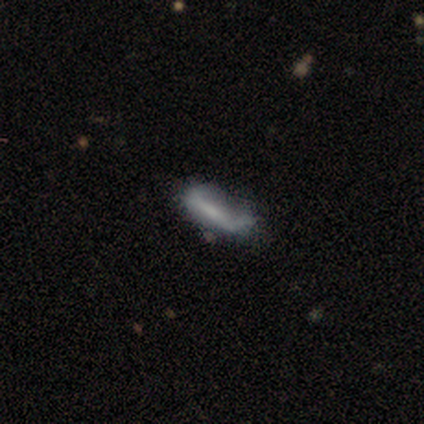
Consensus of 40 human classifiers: featured or disk 52%, smooth 45%, star or artifact 2%. Down the decision tree: edge-on disk — no (67%); bar — no (43%); spiral arms — no (57%); bulge size — small (43%); merging — none (44%).